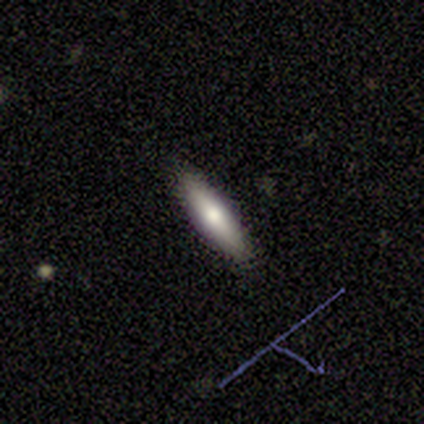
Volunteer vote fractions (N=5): Volunteers were most divided on "smooth or featured": smooth: 80%, featured or disk: 20%, star or artifact: 0%. More confident: how rounded — cigar-shaped (100%); merging — none (80%).